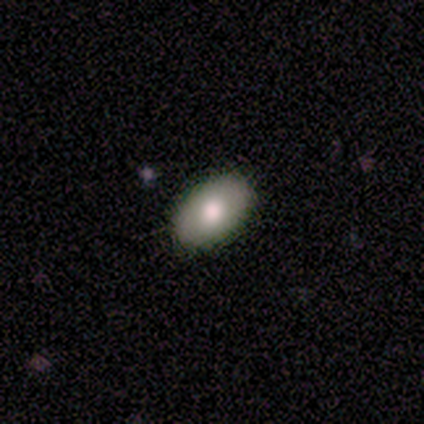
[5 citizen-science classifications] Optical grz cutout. It shows a smooth galaxy with no disk features (80%) that is in between round and cigar-shaped (100%). Merging: none (100%).